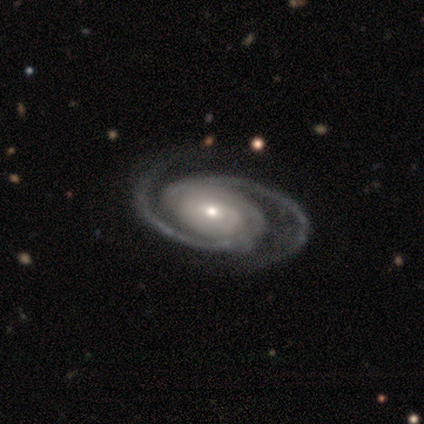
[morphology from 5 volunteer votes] Volunteers were most divided on "spiral winding": medium: 60%, tight: 40%, loose: 0%. More confident: smooth or featured — featured or disk (100%); edge-on disk — no (100%); spiral arms — yes (100%); spiral arm count — 2 (100%); bar — no (80%); bulge size — moderate (80%); merging — none (80%).